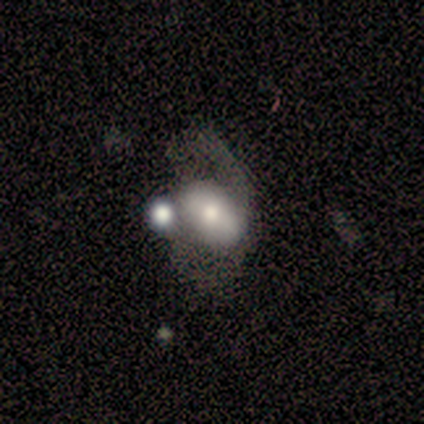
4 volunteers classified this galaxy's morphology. This appears to be a smooth galaxy with no disk features (50%) that is round (50%, tied with in between). Merging: none (67%).